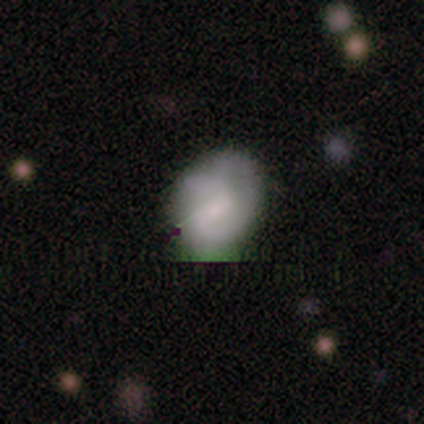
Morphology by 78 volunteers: Overall: smooth (58%; featured or disk 32%). How rounded: in between (60%; round 40%). Merging: none (24%; minor disturbance 17%).